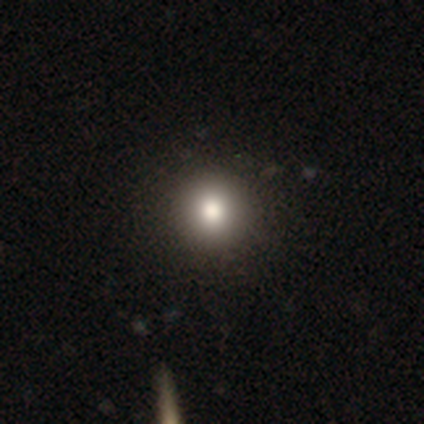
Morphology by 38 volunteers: Volunteers were most divided on "merging": none: 69%, minor disturbance: 6%, merger: 3%, major disturbance: 0%. More confident: how rounded — round (100%); smooth or featured — smooth (84%).